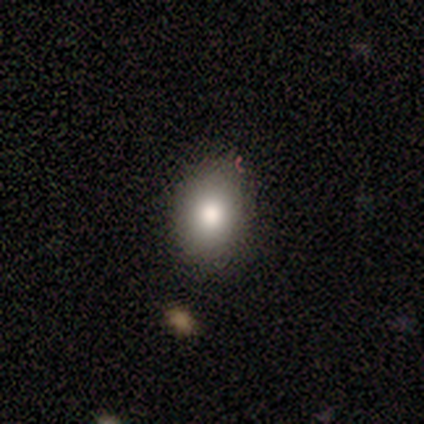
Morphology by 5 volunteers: smooth 100%, featured or disk 0%, star or artifact 0%. Down the decision tree: how rounded — in between (80%); merging — none (100%).